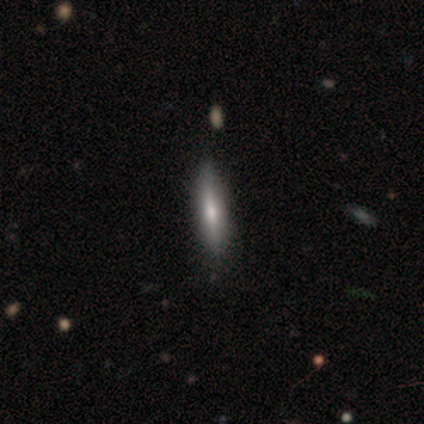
A featured or disk galaxy (59%) viewed edge-on (96%) with a rounded central bulge (45%).

Vote fractions:
- Smooth or featured? featured or disk: 59% / smooth: 41% / star or artifact: 0%
- Edge-on disk? yes: 96% / no: 4%
- Edge-on bulge? rounded: 45% / none: 36% / boxy: 18%
- Merging? none: 64% / minor disturbance: 10% / merger: 3% / major disturbance: 0%